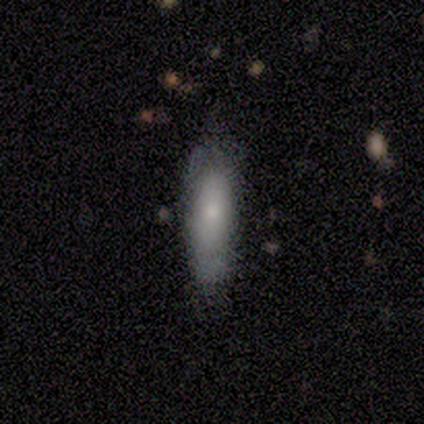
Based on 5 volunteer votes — Volunteers were most divided on "smooth or featured": smooth: 60%, featured or disk: 40%, star or artifact: 0%. More confident: how rounded — in between (67%); merging — minor disturbance (60%).